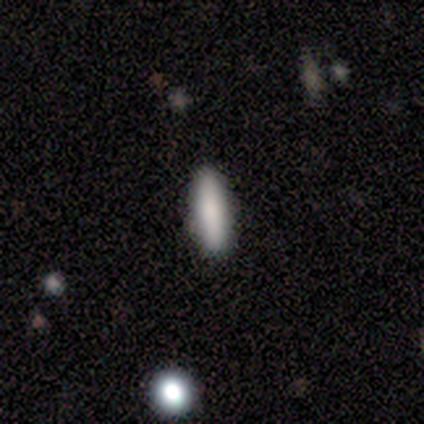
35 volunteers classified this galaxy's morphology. Overall: smooth (86%). How rounded: cigar-shaped (70%). Merging: none (88%).